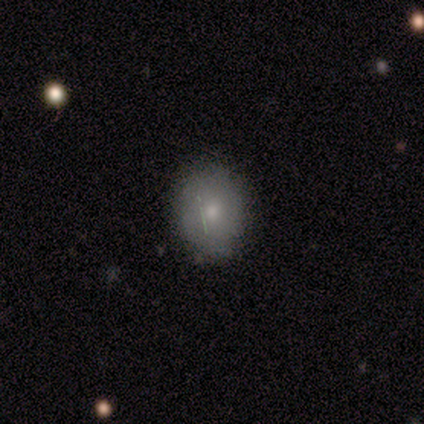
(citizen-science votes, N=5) This is clearly a smooth galaxy (100%). How rounded: clearly in between (80%). Merging: clearly none (100%).